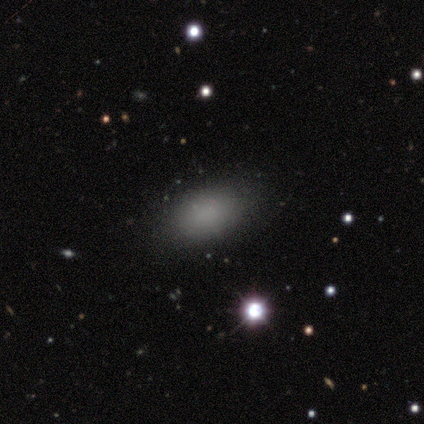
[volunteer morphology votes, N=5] smooth-or-featured: smooth: 100% | featured or disk: 0% | star or artifact: 0%
  how-rounded: in between: 80% | round: 20% | cigar-shaped: 0%
  merging: none: 100% | minor disturbance: 0% | major disturbance: 0% | merger: 0%